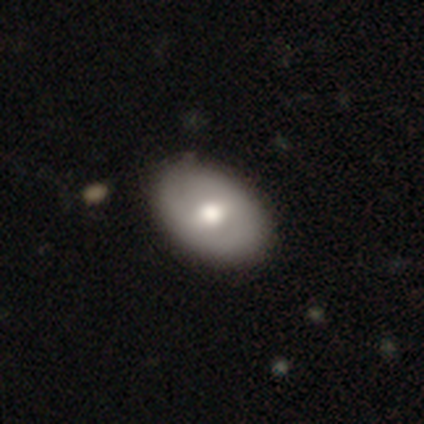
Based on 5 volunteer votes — smooth_or_featured: featured or disk (p=0.60) [alt: smooth p=0.40]
disk_edge_on: no (p=1.00)
bar: no (p=0.67) [alt: weak p=0.33]
has_spiral_arms: no (p=1.00)
bulge_size: moderate (p=0.67) [alt: large p=0.33]
merging: none (p=0.80) [alt: minor disturbance p=0.20]